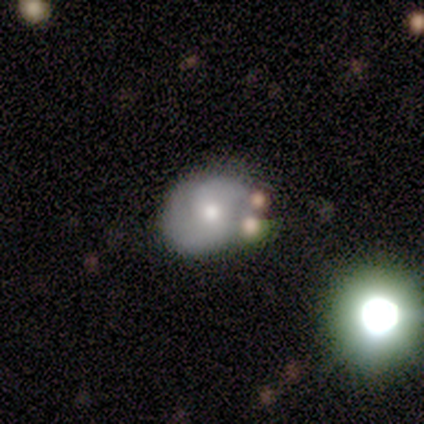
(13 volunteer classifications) Overall: smooth (62%; featured or disk 38%). How rounded: round (50%, tied with in between). Merging: none (62%; merger 31%).